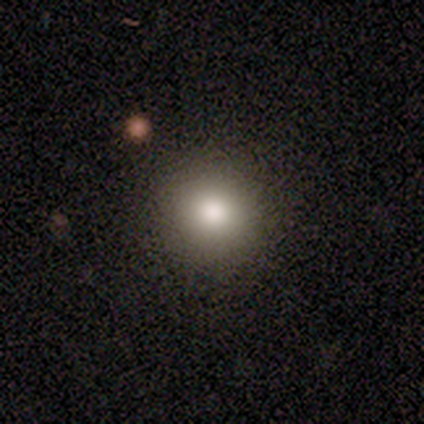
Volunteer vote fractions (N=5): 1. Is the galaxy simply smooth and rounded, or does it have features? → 80% smooth, 20% featured or disk, 0% star or artifact.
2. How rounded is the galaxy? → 100% round, 0% in between, 0% cigar-shaped.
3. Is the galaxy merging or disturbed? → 100% none, 0% minor disturbance, 0% major disturbance, 0% merger.